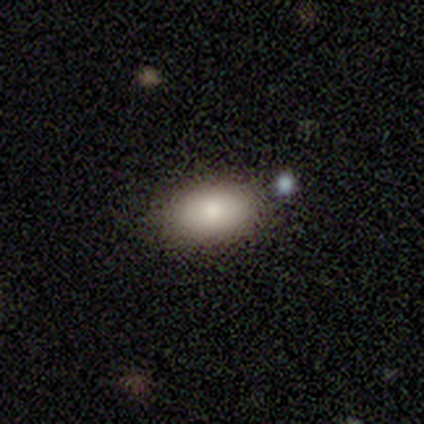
smooth-or-featured: smooth: 80% | featured or disk: 20% | star or artifact: 0%
  how-rounded: in between: 100% | round: 0% | cigar-shaped: 0%
  merging: none: 60% | minor disturbance: 40% | major disturbance: 0% | merger: 0%